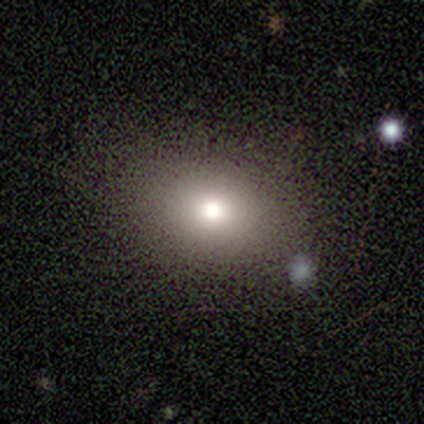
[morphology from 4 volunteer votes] A smooth galaxy with no disk features (75%) that is in between round and cigar-shaped (100%).

Vote fractions:
- Smooth or featured? smooth: 75% / featured or disk: 25% / star or artifact: 0%
- How rounded? in between: 100% / round: 0% / cigar-shaped: 0%
- Merging? none: 75% / minor disturbance: 25% / major disturbance: 0% / merger: 0%